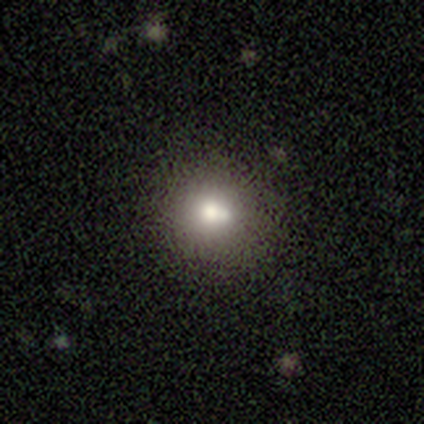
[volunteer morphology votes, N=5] A smooth galaxy with no disk features (60%) that is round (100%). Merging: none (80%).